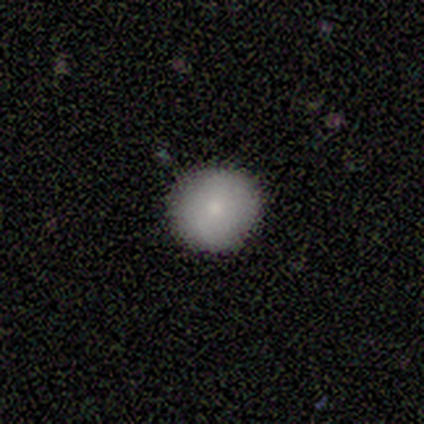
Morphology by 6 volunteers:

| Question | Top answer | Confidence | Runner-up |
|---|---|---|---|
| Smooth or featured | smooth | 100% | — |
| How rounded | round | 100% | — |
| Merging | none | 100% | — |